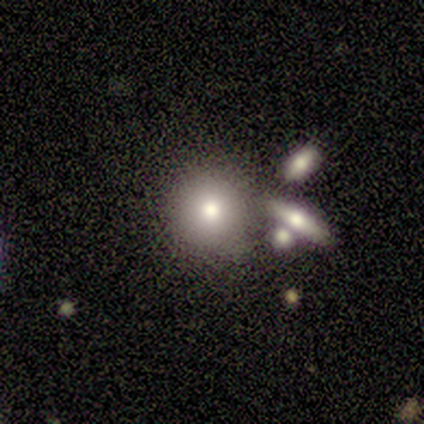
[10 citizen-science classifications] Smooth or featured? 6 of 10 (60%) said smooth. How rounded? 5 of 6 (83%) said round. Merging? 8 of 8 (100%) said none.